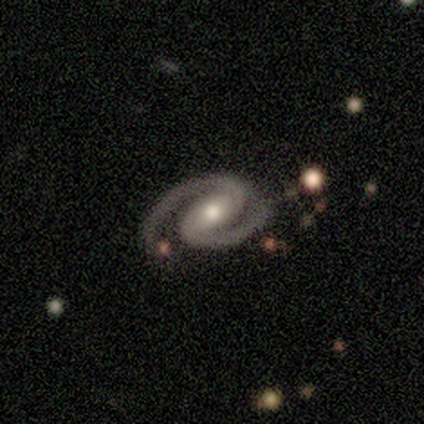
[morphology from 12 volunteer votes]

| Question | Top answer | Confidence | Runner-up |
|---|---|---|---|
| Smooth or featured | featured or disk | 100% | — |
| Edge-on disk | no | 100% | — |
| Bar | weak | 50% | strong (33%) |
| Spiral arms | yes | 100% | — |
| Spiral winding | medium | 67% | tight (33%) |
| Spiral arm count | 2 | 92% | 3 (8%) |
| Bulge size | moderate | 58% | small (25%) |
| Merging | none | 67% | minor disturbance (33%) |